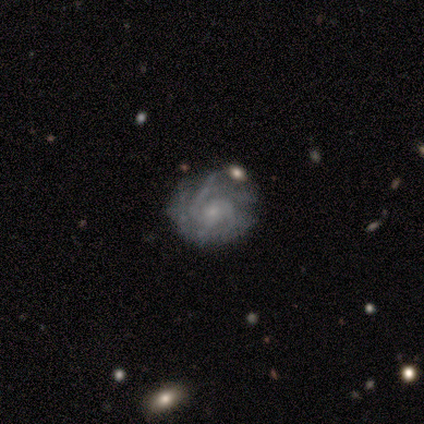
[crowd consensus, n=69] Volunteers were most divided on "spiral arm count": 2: 30%, 3: 28%, can't tell: 23%, 4: 15%, more than 4: 4%, 1: 0%. More confident: edge-on disk — no (98%); spiral arms — yes (95%); smooth or featured — featured or disk (83%); bar — no (80%); bulge size — small (75%); merging — none (61%); spiral winding — tight (53%).